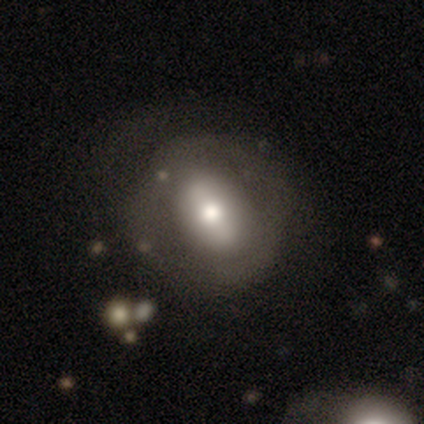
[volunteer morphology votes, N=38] A smooth galaxy with no disk features (53%) that is in between round and cigar-shaped (65%). Merging: none (69%).